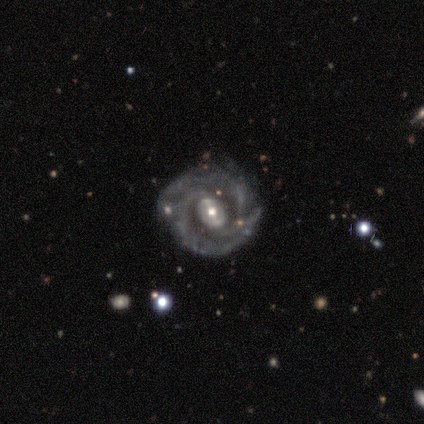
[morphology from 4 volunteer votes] Smooth or featured: featured or disk — 100%
Edge-on disk: no — 100%
Bar: weak — 75% (strong — 25%)
Spiral arms: yes — 100%
Spiral winding: tight — 75% (medium — 25%)
Spiral arm count: 2 — 75% (can't tell — 25%)
Bulge size: moderate — 100%
Merging: none — 100%